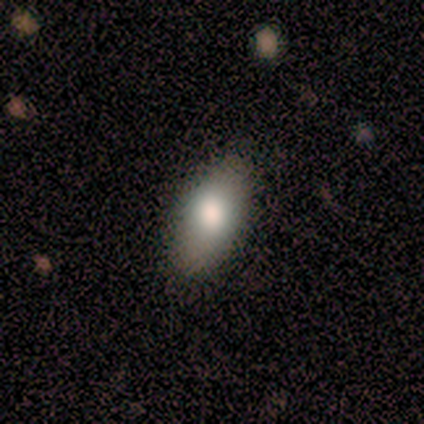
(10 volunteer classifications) Smooth or featured: smooth — 50% (featured or disk — 30%)
How rounded: in between — 100%
Merging: none — 62% (minor disturbance — 38%)